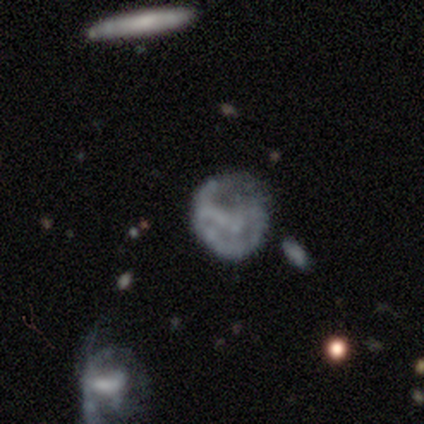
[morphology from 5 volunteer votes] Smooth or featured?
  - smooth: 80% *
  - star or artifact: 20%
  - featured or disk: 0%
How rounded?
  - round: 75% *
  - in between: 25%
  - cigar-shaped: 0%
Merging?
  - major disturbance: 50% *
  - none: 25%
  - minor disturbance: 25%
  - merger: 0%